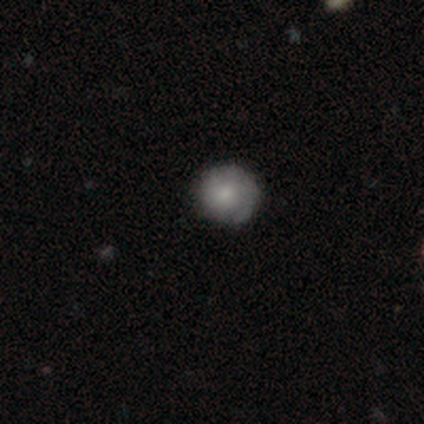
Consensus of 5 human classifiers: This is likely a featured or disk galaxy (60%). It is clearly not viewed edge-on (100%). Bar: clearly no (100%). Spiral arm pattern: likely yes (67%). Spiral arm count: possibly 1 (50%, tied with can't tell). Spiral winding: possibly tight (50%, tied with medium). Central bulge: likely moderate (67%). Merging: clearly none (80%).